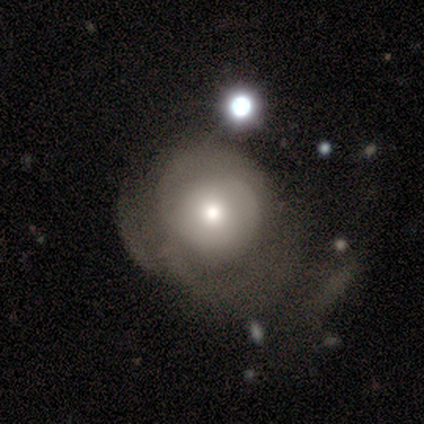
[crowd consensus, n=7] This appears to be a smooth galaxy with no disk features (43%, tied with featured or disk) that is round (100%). Merging: none (33%, tied with minor disturbance and major disturbance).